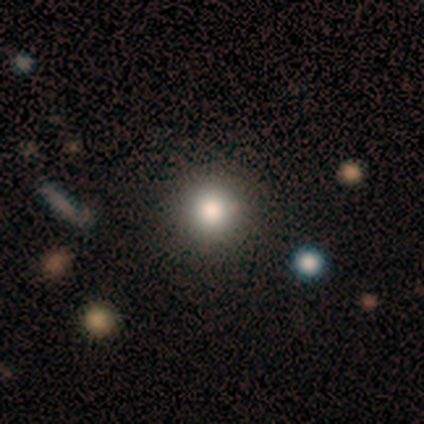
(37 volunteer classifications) Q: Smooth or featured?
A: smooth (73%); runner-up: featured or disk (14%)
Q: How rounded?
A: round (96%); runner-up: in between (4%)
Q: Merging?
A: none (91%); runner-up: minor disturbance (9%)